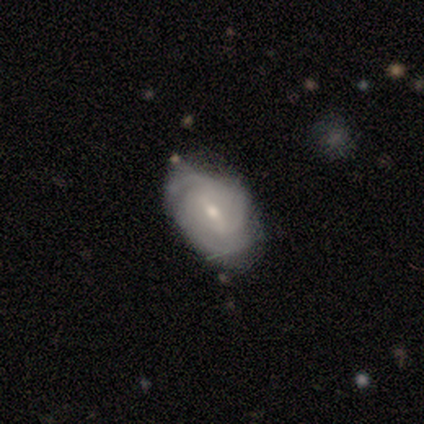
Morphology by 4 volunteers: This is clearly a featured or disk galaxy (100%). It is clearly not viewed edge-on (100%). Bar: likely weak (75%). Spiral arm pattern: clearly yes (100%). Spiral arm count: likely 2 (75%). Spiral winding: likely tight (75%). Central bulge: possibly moderate (50%, tied with small). Merging: likely none (75%).